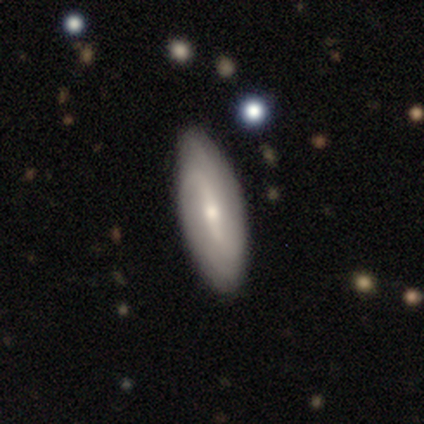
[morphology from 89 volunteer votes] smooth-or-featured: featured or disk: 57% | smooth: 39% | star or artifact: 3%
  disk-edge-on: no: 94% | yes: 6%
    bar: weak: 44% | strong: 40% | no: 17%
    has-spiral-arms: yes: 83% | no: 17%
      spiral-winding: loose: 45% | medium: 32% | tight: 22%
      spiral-arm-count: 2: 48% | can't tell: 45% | 3: 5% | 1: 2% | 4: 0% | more than 4: 0%
    bulge-size: small: 58% | moderate: 42% | dominant: 0% | large: 0% | none: 0%
  merging: none: 86% | minor disturbance: 10% | major disturbance: 2% | merger: 1%